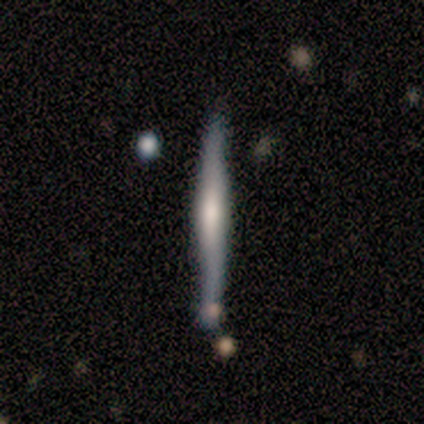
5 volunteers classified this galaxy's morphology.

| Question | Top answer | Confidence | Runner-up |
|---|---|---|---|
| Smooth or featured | featured or disk | 80% | smooth (20%) |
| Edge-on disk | yes | 100% | — |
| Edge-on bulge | rounded | 75% | boxy (25%) |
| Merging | none | 100% | — |